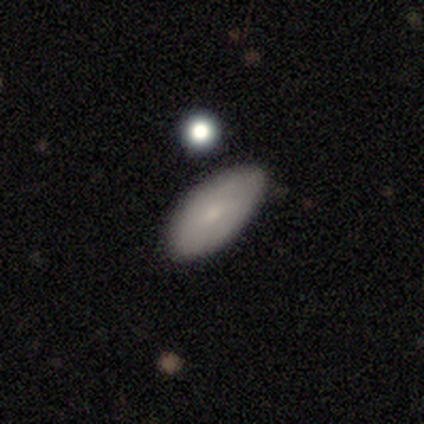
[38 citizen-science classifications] This is likely a smooth galaxy (79%). How rounded: clearly in between (100%). Merging: clearly none (91%).